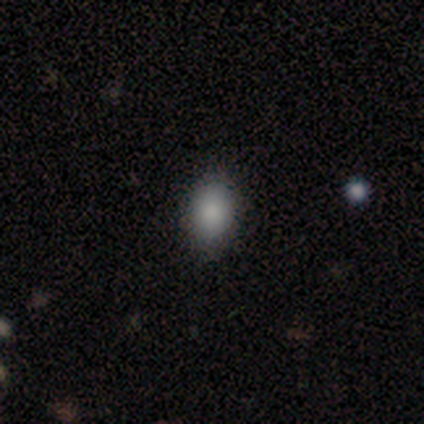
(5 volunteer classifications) Overall: smooth (100%). How rounded: in between (100%). Merging: none (60%; minor disturbance 40%).